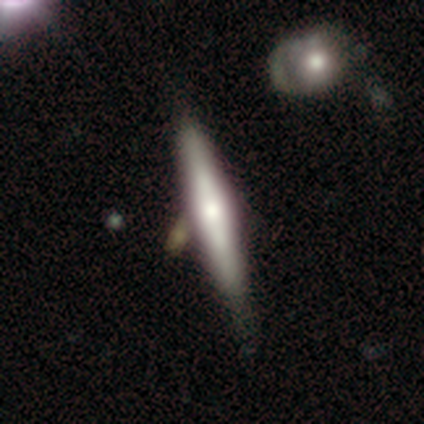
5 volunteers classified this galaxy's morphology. This appears to be a smooth galaxy with no disk features (40%, tied with featured or disk) that is cigar-shaped (100%). Merging: none (50%).